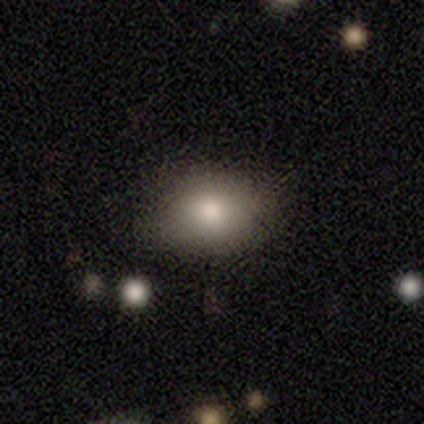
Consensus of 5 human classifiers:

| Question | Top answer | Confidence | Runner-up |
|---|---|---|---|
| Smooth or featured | smooth | 100% | — |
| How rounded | round | 80% | in between (20%) |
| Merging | none | 100% | — |